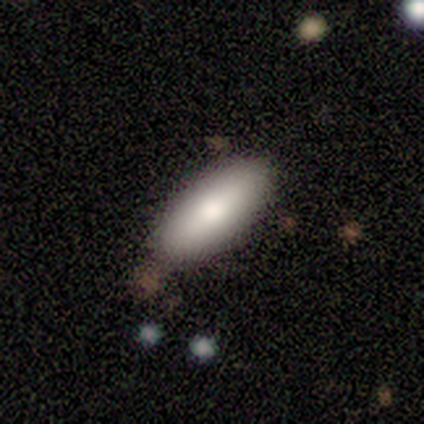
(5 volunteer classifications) smooth-or-featured: smooth: 80% | featured or disk: 20% | star or artifact: 0%
  how-rounded: in between: 100% | round: 0% | cigar-shaped: 0%
  merging: none: 60% | minor disturbance: 40% | major disturbance: 0% | merger: 0%